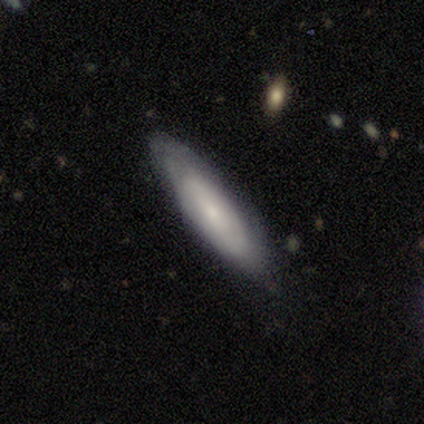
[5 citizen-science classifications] Smooth or featured? 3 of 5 (60%) said featured or disk. Edge-on disk? 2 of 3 (67%) said yes. Edge-on bulge? 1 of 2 (50%, tied with rounded) said none. Merging? 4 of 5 (80%) said none.